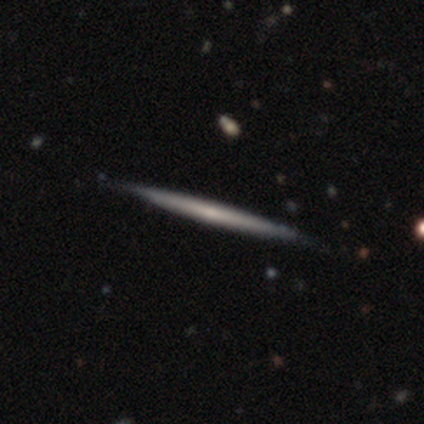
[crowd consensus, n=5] Volunteers were most divided on "smooth or featured": featured or disk: 60%, smooth: 40%, star or artifact: 0%. More confident: edge-on disk — yes (100%); edge-on bulge — none (100%); merging — none (100%).